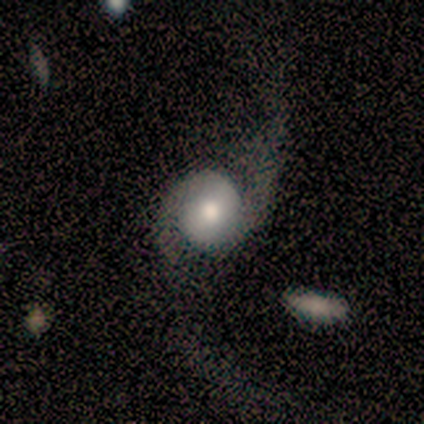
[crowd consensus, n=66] Q: Smooth or featured?
A: featured or disk (74%); runner-up: smooth (21%)
Q: Edge-on disk?
A: no (94%); runner-up: yes (6%)
Q: Bar?
A: no (74%); runner-up: weak (22%)
Q: Spiral arms?
A: yes (87%); runner-up: no (13%)
Q: Spiral winding?
A: loose (70%); runner-up: medium (22%)
Q: Spiral arm count?
A: 2 (100%)
Q: Bulge size?
A: moderate (54%); runner-up: large (22%)
Q: Merging?
A: major disturbance (52%); runner-up: none (33%)